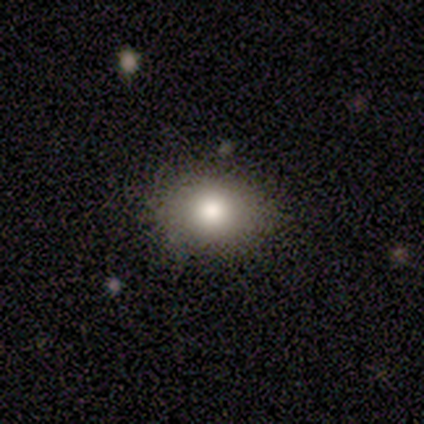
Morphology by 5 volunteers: Smooth or featured? 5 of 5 (100%) said smooth. How rounded? 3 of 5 (60%) said in between. Merging? 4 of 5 (80%) said none.